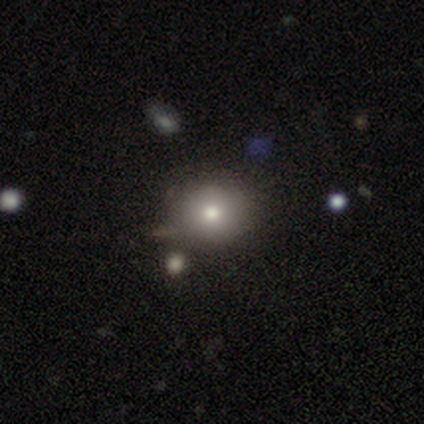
This appears to be a smooth galaxy with no disk features (68%) that is round (85%). Merging: none (65%).